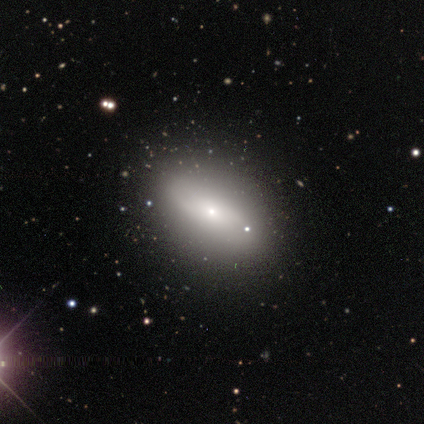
Smooth or featured? featured or disk (60%)
Edge-on disk? yes (67%)
Edge-on bulge? rounded (100%)
Merging? none (60%)